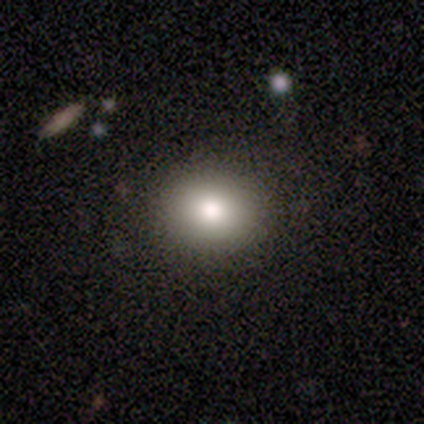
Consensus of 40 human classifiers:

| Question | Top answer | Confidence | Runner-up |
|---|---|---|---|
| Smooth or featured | smooth | 80% | featured or disk (15%) |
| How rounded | round | 53% | in between (47%) |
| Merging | none | 89% | minor disturbance (8%) |